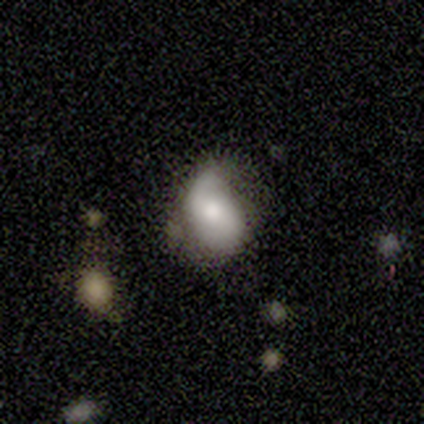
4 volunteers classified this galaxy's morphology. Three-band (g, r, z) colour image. It shows a smooth galaxy with no disk features (50%, tied with featured or disk) that is in between round and cigar-shaped (100%). Merging: minor disturbance (75%).